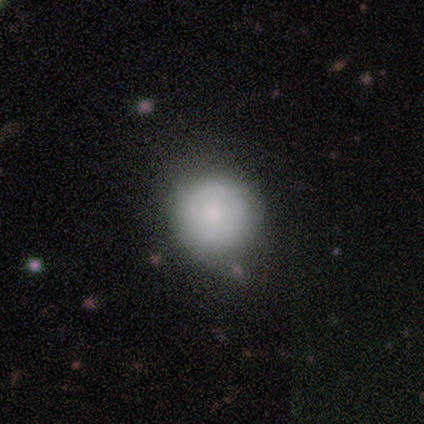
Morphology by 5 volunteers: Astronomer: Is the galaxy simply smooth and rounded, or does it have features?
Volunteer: featured or disk — 60% (runner-up: smooth, 40%).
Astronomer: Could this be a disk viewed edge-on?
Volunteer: no — 100%.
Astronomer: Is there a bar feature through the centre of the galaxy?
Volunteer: no — 100%.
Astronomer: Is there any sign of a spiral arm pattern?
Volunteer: no — 100%.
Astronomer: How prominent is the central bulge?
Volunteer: small — 67%.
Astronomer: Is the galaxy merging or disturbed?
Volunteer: none — 100%.